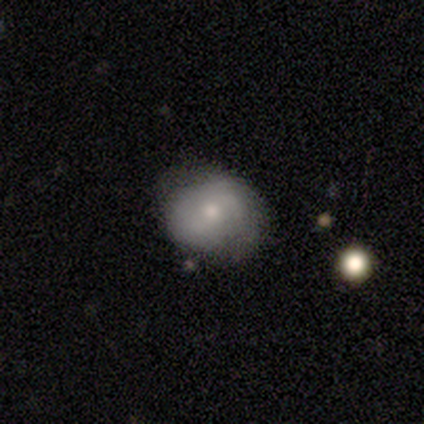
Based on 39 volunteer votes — Q: Smooth or featured?
A: smooth (51%); runner-up: featured or disk (49%)
Q: How rounded?
A: in between (55%); runner-up: round (45%)
Q: Merging?
A: none (49%); runner-up: minor disturbance (21%)